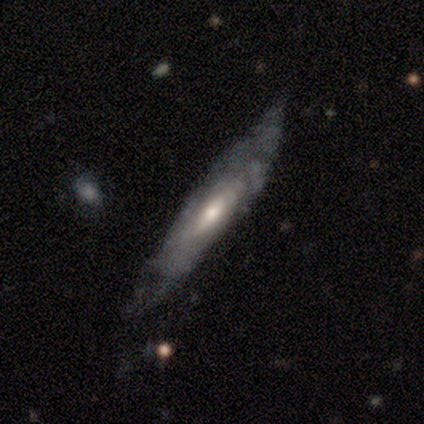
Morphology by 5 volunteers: smooth-or-featured: featured or disk: 100% | smooth: 0% | star or artifact: 0%
  disk-edge-on: yes: 60% | no: 40%
    edge-on-bulge: rounded: 100% | boxy: 0% | none: 0%
  merging: none: 60% | minor disturbance: 40% | major disturbance: 0% | merger: 0%